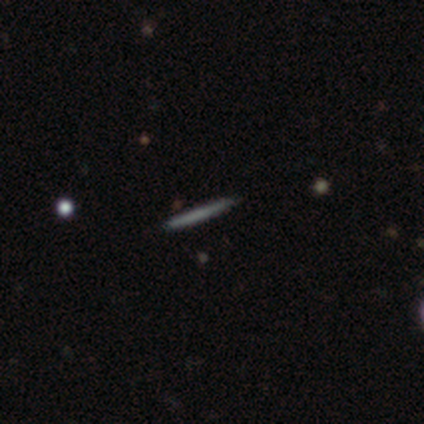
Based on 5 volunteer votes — Smooth or featured? smooth (60%)
How rounded? cigar-shaped (100%)
Merging? none (100%)